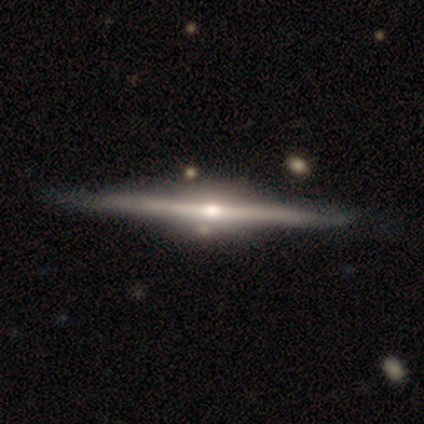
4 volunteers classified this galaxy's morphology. Smooth or featured? featured or disk (100%)
Edge-on disk? yes (100%)
Edge-on bulge? rounded (75%)
Merging? none (100%)